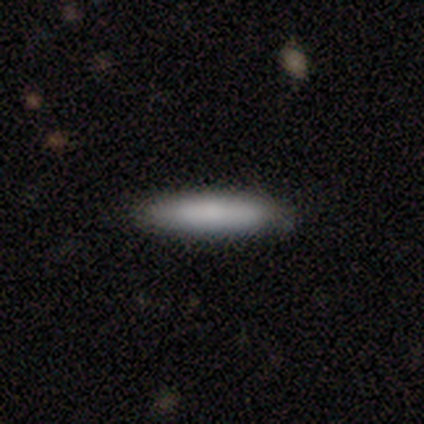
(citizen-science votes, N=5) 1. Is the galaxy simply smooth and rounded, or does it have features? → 80% smooth, 20% featured or disk, 0% star or artifact.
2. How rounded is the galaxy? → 100% cigar-shaped, 0% round, 0% in between.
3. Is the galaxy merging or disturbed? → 60% minor disturbance, 40% none, 0% major disturbance, 0% merger.